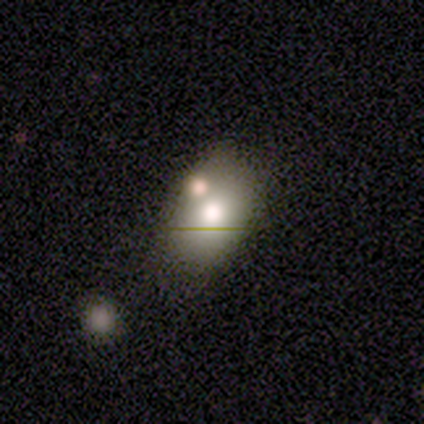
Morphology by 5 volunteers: Smooth or featured?
  - smooth: 100% *
  - featured or disk: 0%
  - star or artifact: 0%
How rounded?
  - in between: 80% *
  - round: 20%
  - cigar-shaped: 0%
Merging?
  - none: 40% * (tied)
  - minor disturbance: 40% * (tied)
  - merger: 20%
  - major disturbance: 0%